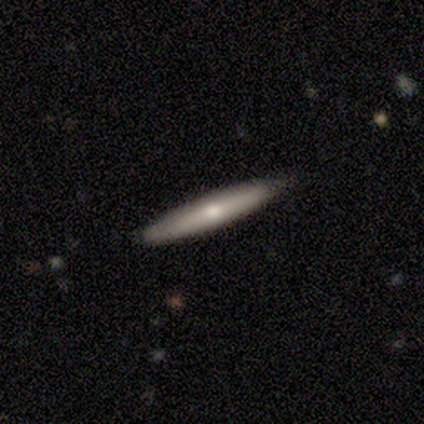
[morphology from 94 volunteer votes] Volunteers were most divided on "smooth or featured": smooth: 51%, featured or disk: 44%, star or artifact: 5%. More confident: how rounded — cigar-shaped (100%); merging — none (82%).